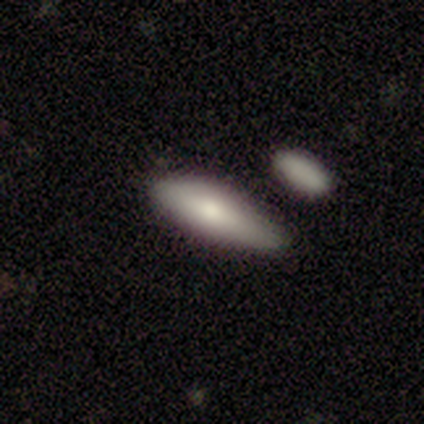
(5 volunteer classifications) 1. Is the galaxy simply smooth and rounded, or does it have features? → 100% smooth, 0% featured or disk, 0% star or artifact.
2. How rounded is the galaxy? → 60% cigar-shaped, 40% in between, 0% round.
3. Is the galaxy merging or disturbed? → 80% none, 20% minor disturbance, 0% major disturbance, 0% merger.